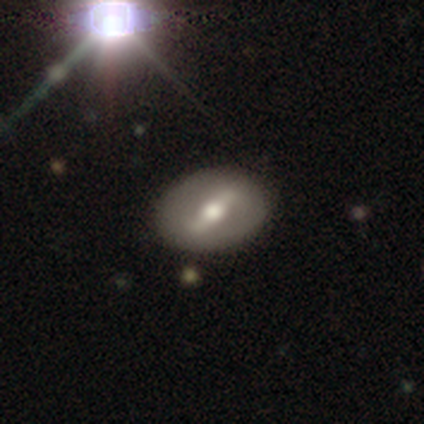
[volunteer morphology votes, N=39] This is clearly a featured or disk galaxy (82%). It is clearly not viewed edge-on (81%). Bar: likely strong (62%). Spiral arm pattern: likely no (65%). Central bulge: likely moderate (65%). Merging: clearly none (91%).